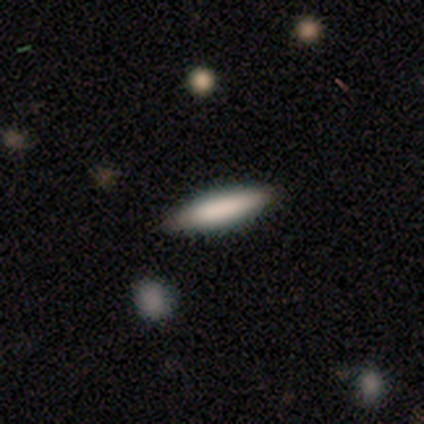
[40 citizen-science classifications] smooth 85%, featured or disk 10%, star or artifact 5%. Down the decision tree: how rounded — cigar-shaped (71%); merging — none (92%).